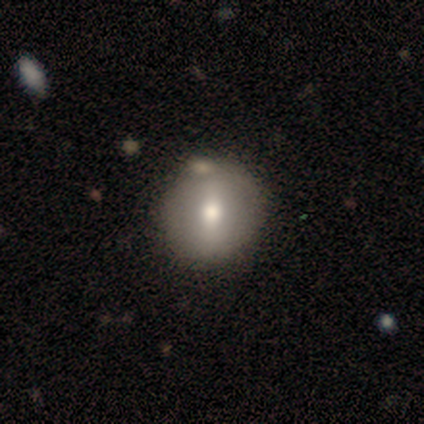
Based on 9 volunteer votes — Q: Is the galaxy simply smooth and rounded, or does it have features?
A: smooth — 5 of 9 (56%).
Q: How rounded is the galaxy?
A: round — 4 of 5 (80%).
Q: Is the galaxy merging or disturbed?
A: none — 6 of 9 (67%).